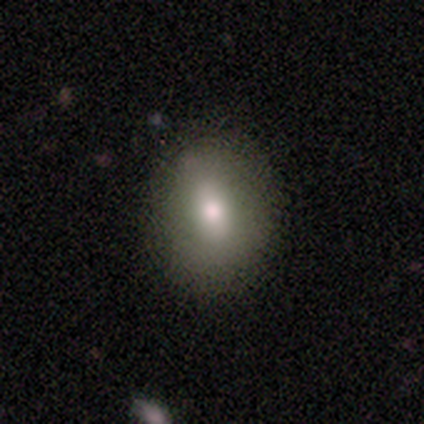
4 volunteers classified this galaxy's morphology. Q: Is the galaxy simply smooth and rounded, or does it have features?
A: smooth — 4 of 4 (100%).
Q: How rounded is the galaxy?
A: in between — 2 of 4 (50%).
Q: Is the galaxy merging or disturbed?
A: none — 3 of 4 (75%).